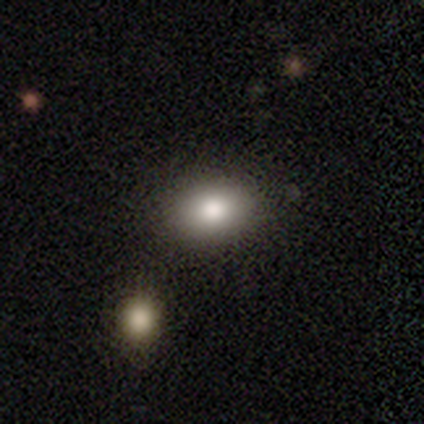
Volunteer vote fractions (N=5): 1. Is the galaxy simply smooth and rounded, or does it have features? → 100% smooth, 0% featured or disk, 0% star or artifact.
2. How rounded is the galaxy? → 80% in between, 20% round, 0% cigar-shaped.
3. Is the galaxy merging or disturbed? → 80% none, 20% minor disturbance, 0% major disturbance, 0% merger.